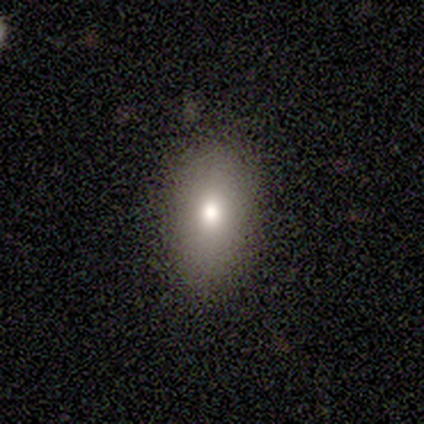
Overall: smooth (100%). How rounded: in between (100%). Merging: none (100%).